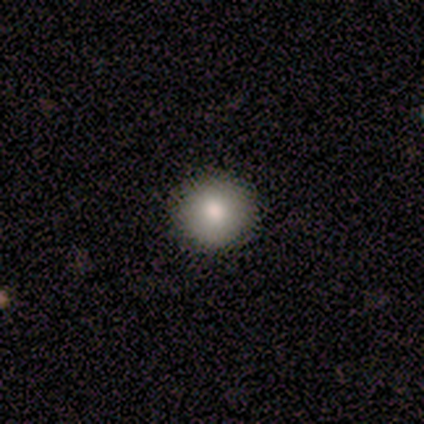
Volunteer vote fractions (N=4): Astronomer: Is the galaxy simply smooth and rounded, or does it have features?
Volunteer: smooth — 100%.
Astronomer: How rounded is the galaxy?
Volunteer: round — 100%.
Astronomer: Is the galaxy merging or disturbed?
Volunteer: none — 75%.